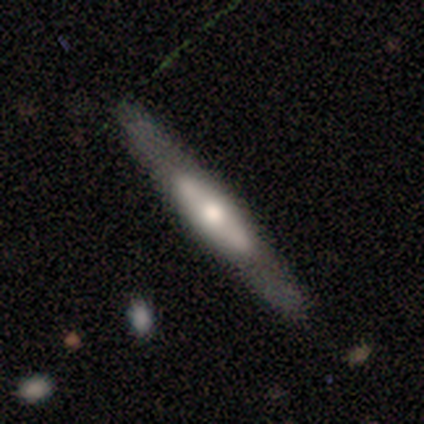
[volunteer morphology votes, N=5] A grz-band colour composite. It shows a featured or disk galaxy (80%) viewed edge-on (100%) with a rounded central bulge (50%). Merging: none (60%).